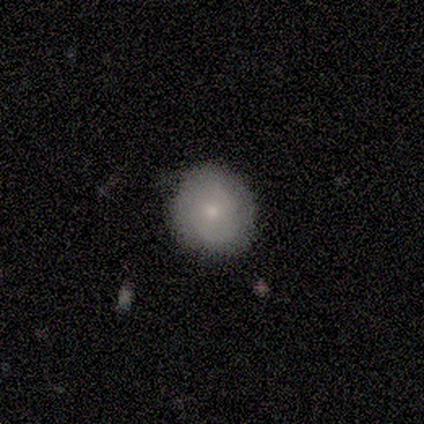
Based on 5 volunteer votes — Overall: smooth (80%). How rounded: round (100%). Merging: none (100%).